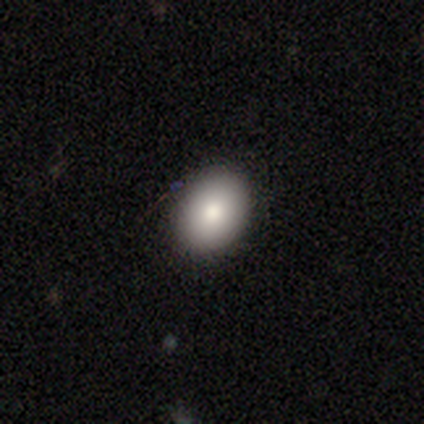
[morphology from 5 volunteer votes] Q: Smooth or featured?
A: smooth (100%)
Q: How rounded?
A: in between (60%); runner-up: round (40%)
Q: Merging?
A: none (100%)